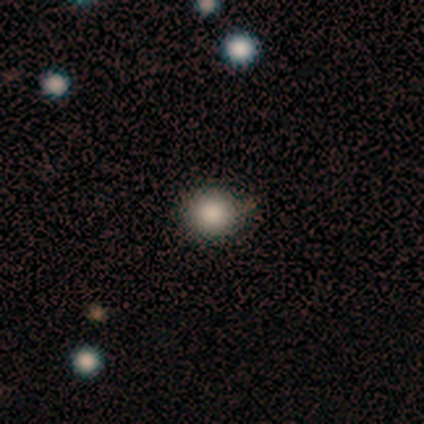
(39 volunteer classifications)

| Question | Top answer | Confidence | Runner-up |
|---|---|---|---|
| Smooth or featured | smooth | 79% | star or artifact (13%) |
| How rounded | round | 87% | in between (13%) |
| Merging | none | 82% | minor disturbance (12%) |